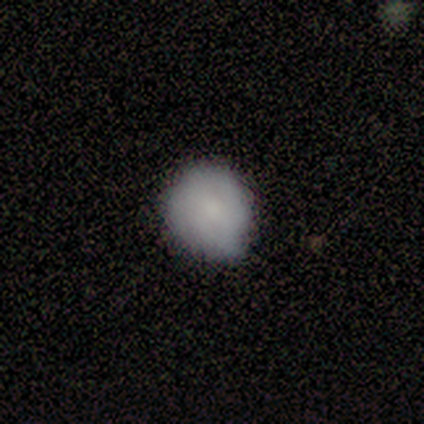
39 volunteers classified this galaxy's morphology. Smooth or featured? smooth (77%)
How rounded? round (93%)
Merging? none (54%)